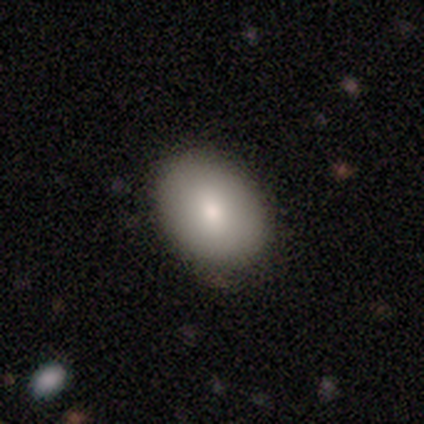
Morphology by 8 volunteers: Smooth or featured?
  - smooth: 88% *
  - featured or disk: 12%
  - star or artifact: 0%
How rounded?
  - in between: 100% *
  - round: 0%
  - cigar-shaped: 0%
Merging?
  - none: 100% *
  - minor disturbance: 0%
  - major disturbance: 0%
  - merger: 0%